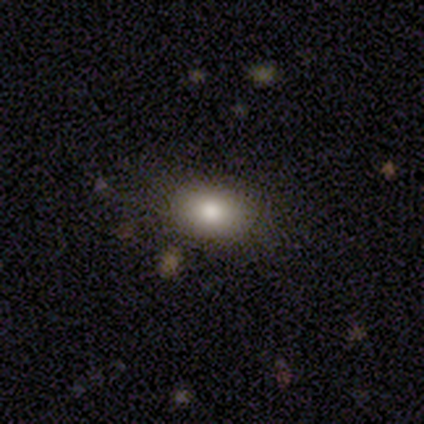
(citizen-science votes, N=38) Overall: smooth (79%). How rounded: in between (57%; round 43%). Merging: none (86%).